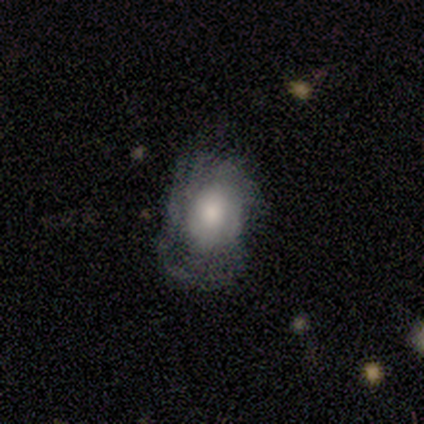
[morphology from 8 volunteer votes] This appears to be a featured or disk galaxy (50%) with no bar (100%), tight (75%) spiral arms (100%) and a moderate central bulge (50%). Merging: none (33%, tied with minor disturbance and major disturbance).